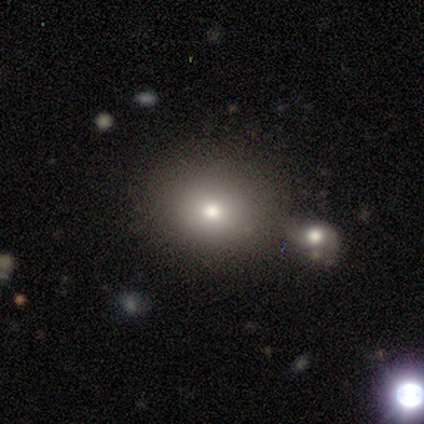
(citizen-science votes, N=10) smooth-or-featured: smooth: 50% | featured or disk: 40% | star or artifact: 10%
  how-rounded: in between: 60% | round: 40% | cigar-shaped: 0%
  merging: none: 78% | minor disturbance: 11% | merger: 11% | major disturbance: 0%